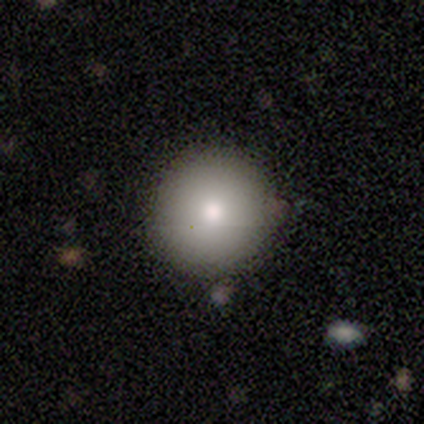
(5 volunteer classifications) This appears to be a smooth galaxy with no disk features (100%) that is round (100%). Merging: none (80%).